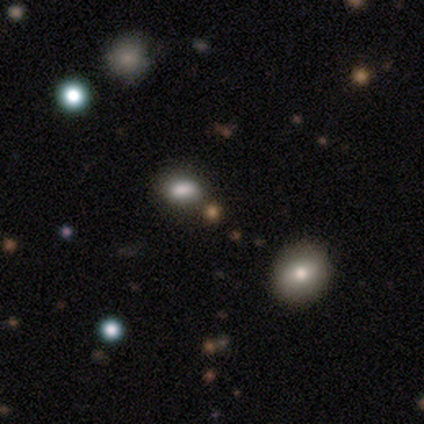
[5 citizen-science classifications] Volunteers were most divided on "smooth or featured": smooth: 60%, star or artifact: 40%, featured or disk: 0%. More confident: how rounded — in between (67%); merging — none (67%).